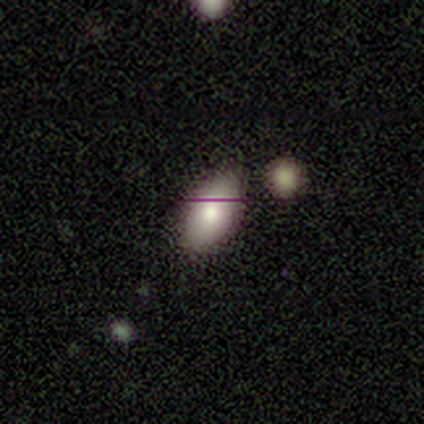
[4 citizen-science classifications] Morphology: type=smooth (50%, tied with featured or disk); roundness=in between (100%); merging=none (100%).